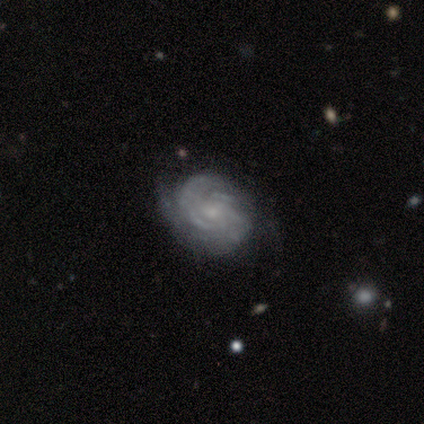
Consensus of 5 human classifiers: Smooth or featured: featured or disk — 100%
Edge-on disk: no — 100%
Bar: no — 80% (weak — 20%)
Spiral arms: yes — 80% (no — 20%)
Spiral winding: tight — 100%
Spiral arm count: 2 — 50% (3 — 25%)
Bulge size: small — 60% (moderate — 40%)
Merging: none — 60% (minor disturbance — 40%)